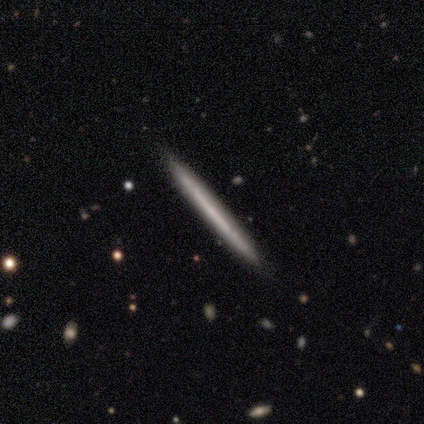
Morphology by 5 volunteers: Q: Smooth or featured?
A: featured or disk (60%); runner-up: smooth (40%)
Q: Edge-on disk?
A: yes (100%)
Q: Edge-on bulge?
A: none (67%); runner-up: rounded (33%)
Q: Merging?
A: none (100%)